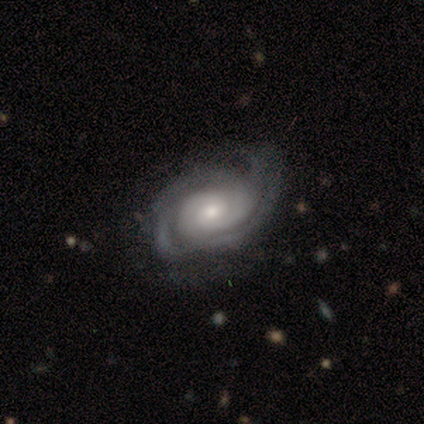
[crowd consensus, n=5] A featured or disk galaxy (100%) with a weak bar (40%, tied with no), 3 (40%) tight (60%) spiral arms (100%) and a small central bulge (60%).

Vote fractions:
- Smooth or featured? featured or disk: 100% / smooth: 0% / star or artifact: 0%
- Edge-on disk? no: 100% / yes: 0%
- Bar? weak: 40% (tied) / no: 40% (tied) / strong: 20%
- Spiral arms? yes: 100% / no: 0%
- Spiral winding? tight: 60% / medium: 40% / loose: 0%
- Spiral arm count? 3: 40% / 2: 20% / 4: 20% / can't tell: 20% / 1: 0% / more than 4: 0%
- Bulge size? small: 60% / moderate: 40% / dominant: 0% / large: 0% / none: 0%
- Merging? none: 80% / major disturbance: 20% / minor disturbance: 0% / merger: 0%